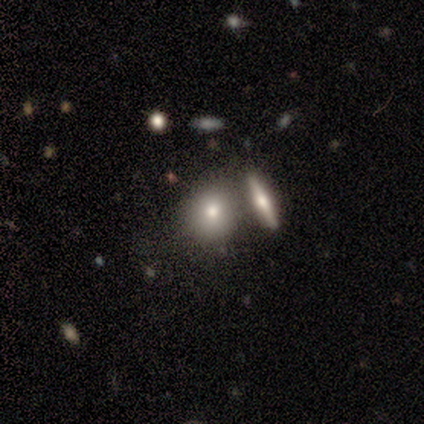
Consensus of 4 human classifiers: Smooth or featured?
  - smooth: 75% *
  - star or artifact: 25%
  - featured or disk: 0%
How rounded?
  - round: 67% *
  - in between: 33%
  - cigar-shaped: 0%
Merging?
  - none: 67% *
  - merger: 33%
  - minor disturbance: 0%
  - major disturbance: 0%